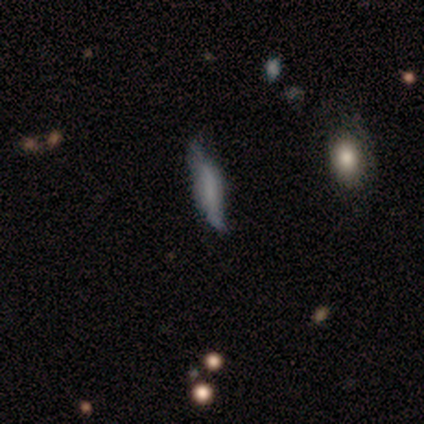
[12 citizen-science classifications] A smooth galaxy with no disk features (58%) that is cigar-shaped (57%).

Vote fractions:
- Smooth or featured? smooth: 58% / star or artifact: 25% / featured or disk: 17%
- How rounded? cigar-shaped: 57% / in between: 29% / round: 14%
- Merging? none: 78% / minor disturbance: 22% / major disturbance: 0% / merger: 0%